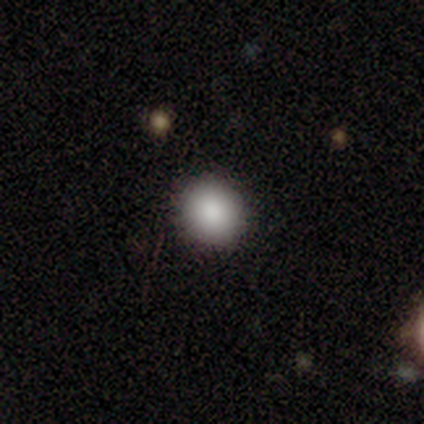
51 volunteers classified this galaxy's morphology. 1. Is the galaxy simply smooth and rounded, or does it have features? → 92% smooth, 6% star or artifact, 2% featured or disk.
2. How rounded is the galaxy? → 89% round, 11% in between, 0% cigar-shaped.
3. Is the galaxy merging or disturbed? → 94% none, 6% minor disturbance, 0% major disturbance, 0% merger.